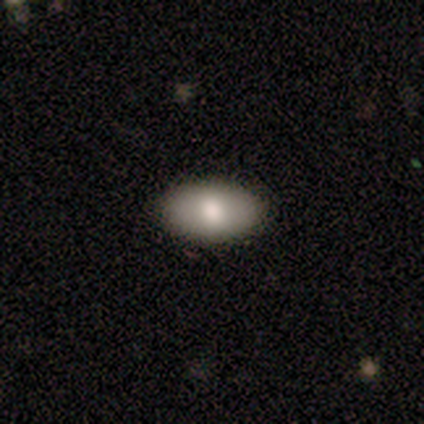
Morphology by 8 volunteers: Volunteers were most divided on "smooth or featured": smooth: 50%, featured or disk: 25%, star or artifact: 25%. More confident: how rounded — in between (100%); merging — none (100%).